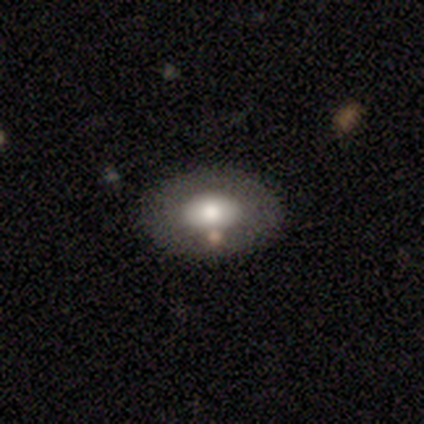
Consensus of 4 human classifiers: A star or artifact, not a galaxy (50%).